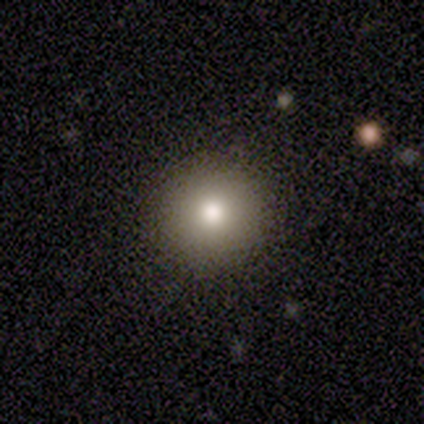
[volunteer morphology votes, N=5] Smooth or featured? 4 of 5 (80%) said smooth. How rounded? 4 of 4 (100%) said round. Merging? 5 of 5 (100%) said none.